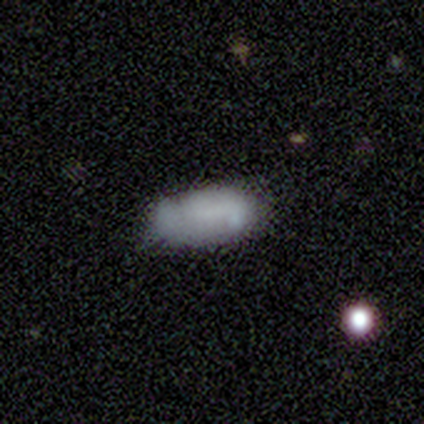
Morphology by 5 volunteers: Overall: smooth (100%). How rounded: in between (100%). Merging: none (40%, tied with minor disturbance).